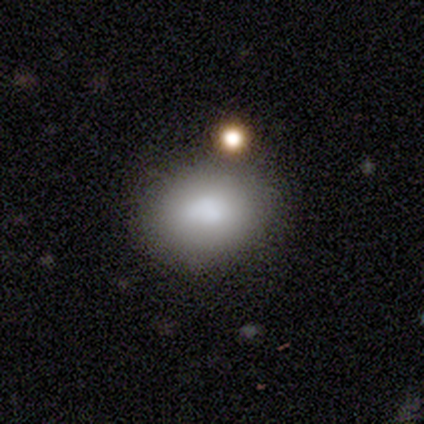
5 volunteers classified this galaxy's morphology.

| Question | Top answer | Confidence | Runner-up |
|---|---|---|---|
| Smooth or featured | smooth | 100% | — |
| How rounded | in between | 80% | round (20%) |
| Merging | none | 60% | minor disturbance (40%) |